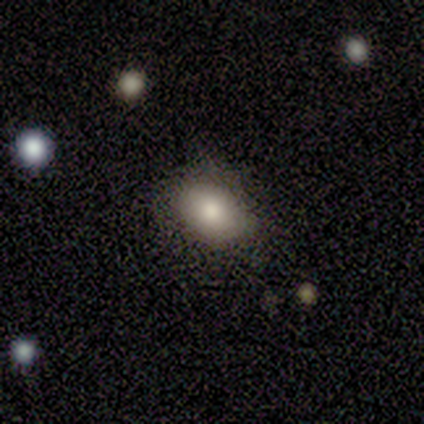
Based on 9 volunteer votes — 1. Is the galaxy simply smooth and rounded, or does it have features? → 89% smooth, 11% star or artifact, 0% featured or disk.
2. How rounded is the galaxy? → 62% in between, 38% round, 0% cigar-shaped.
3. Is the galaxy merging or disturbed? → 88% none, 12% minor disturbance, 0% major disturbance, 0% merger.